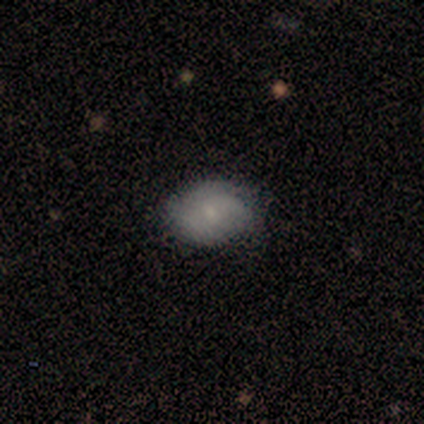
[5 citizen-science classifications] Smooth or featured? smooth (100%)
How rounded? in between (80%)
Merging? none (100%)